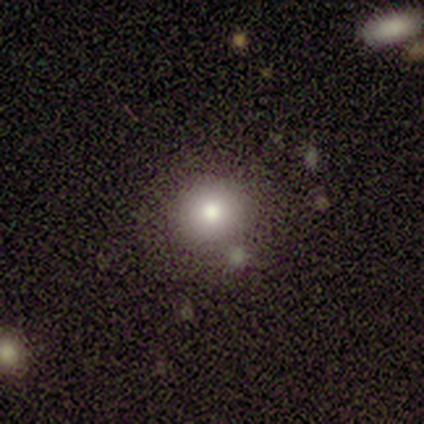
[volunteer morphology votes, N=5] smooth-or-featured: smooth: 80% | featured or disk: 20% | star or artifact: 0%
  how-rounded: round: 100% | in between: 0% | cigar-shaped: 0%
  merging: none: 100% | minor disturbance: 0% | major disturbance: 0% | merger: 0%